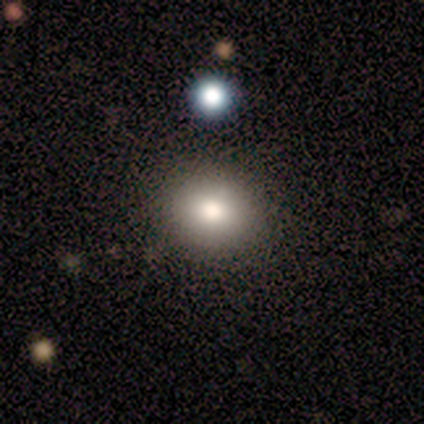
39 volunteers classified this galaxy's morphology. A smooth galaxy with no disk features (82%) that is round (56%).

Vote fractions:
- Smooth or featured? smooth: 82% / star or artifact: 13% / featured or disk: 5%
- How rounded? round: 56% / in between: 44% / cigar-shaped: 0%
- Merging? none: 59% / minor disturbance: 12% / merger: 9% / major disturbance: 0%